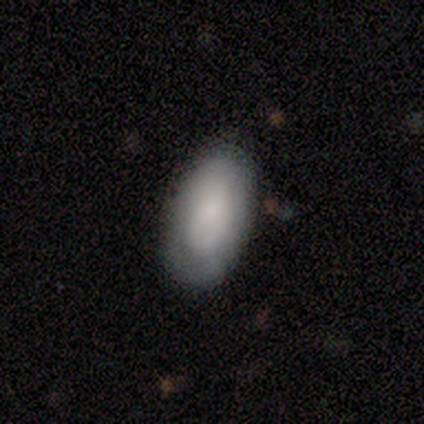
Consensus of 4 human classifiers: Smooth or featured: smooth — 100%
How rounded: in between — 100%
Merging: minor disturbance — 75% (none — 25%)